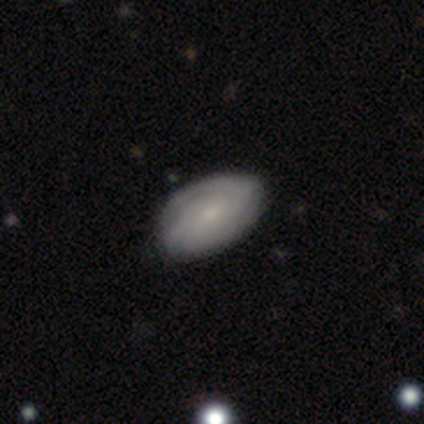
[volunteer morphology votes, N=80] type=featured or disk (62%); edge-on=no (100%); bar=no (78%); spiral arms=yes (94%); winding=tight (66%); arm count=can't tell (57%); bulge=small (68%); merging=none (52%).